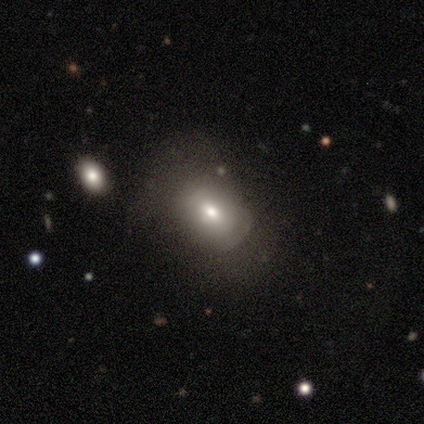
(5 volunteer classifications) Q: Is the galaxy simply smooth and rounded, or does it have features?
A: smooth — 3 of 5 (60%).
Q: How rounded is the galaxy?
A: in between — 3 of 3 (100%).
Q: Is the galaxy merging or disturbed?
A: none — 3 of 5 (60%).